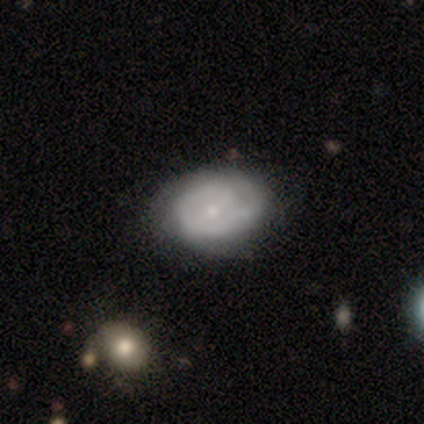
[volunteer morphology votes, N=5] Smooth or featured: smooth — 100%
How rounded: in between — 80% (round — 20%)
Merging: none — 60% (minor disturbance — 40%)